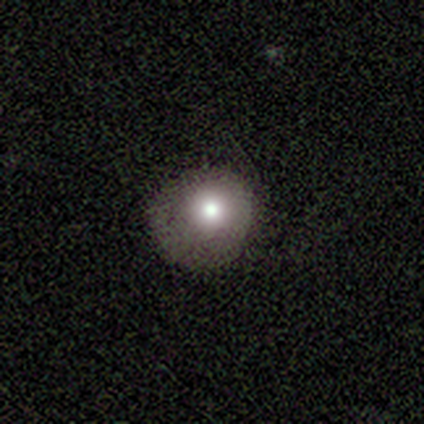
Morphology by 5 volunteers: Overall: smooth (80%). How rounded: round (100%). Merging: none (60%; minor disturbance 40%).